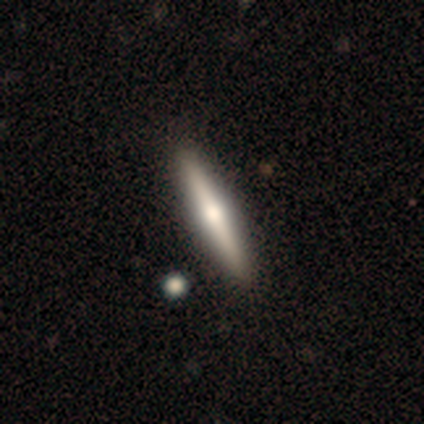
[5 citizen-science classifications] This is likely a featured or disk galaxy (60%). It is clearly viewed edge-on (100%). Edge-on bulge: clearly rounded (100%). Merging: clearly none (100%).